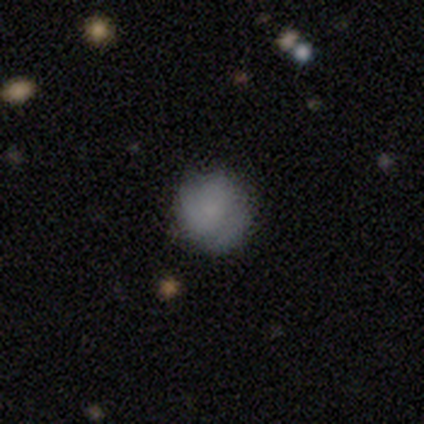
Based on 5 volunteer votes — Smooth or featured? smooth (100%)
How rounded? round (80%)
Merging? none (100%)